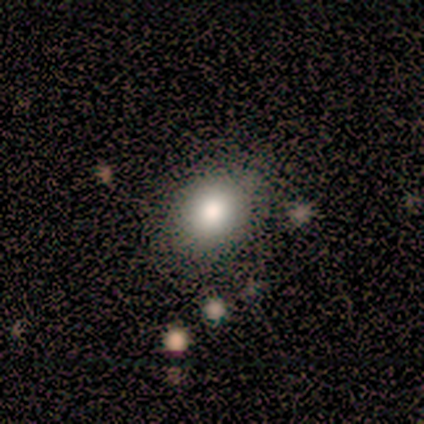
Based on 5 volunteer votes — Smooth or featured? 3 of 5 (60%) said smooth. How rounded? 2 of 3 (67%) said in between. Merging? 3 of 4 (75%) said none.